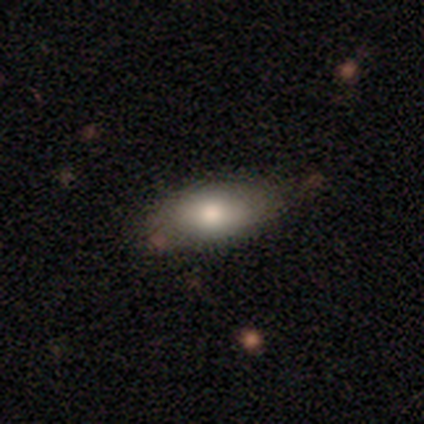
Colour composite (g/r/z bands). It shows a smooth galaxy with no disk features (75%) that is in between round and cigar-shaped (90%). Merging: none (90%).